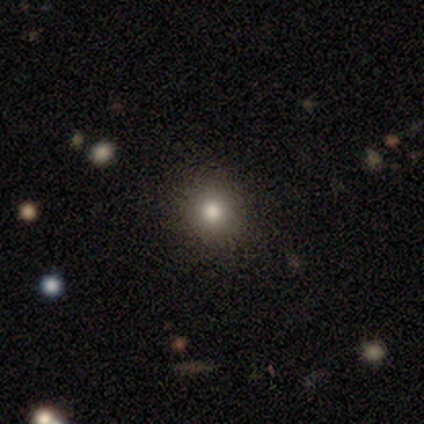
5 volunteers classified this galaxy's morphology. Smooth or featured? smooth (80%)
How rounded? round (100%)
Merging? none (100%)